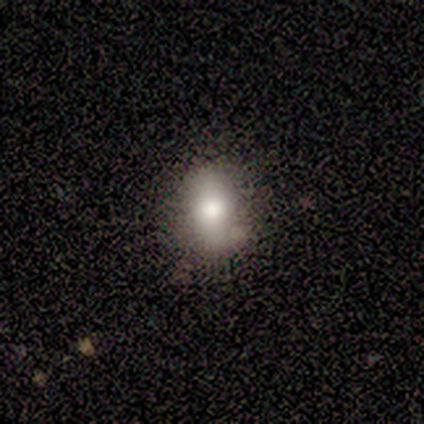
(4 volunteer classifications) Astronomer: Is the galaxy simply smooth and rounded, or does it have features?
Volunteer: smooth — 75%.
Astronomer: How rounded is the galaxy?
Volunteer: in between — 100%.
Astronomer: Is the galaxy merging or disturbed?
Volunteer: none — 100%.